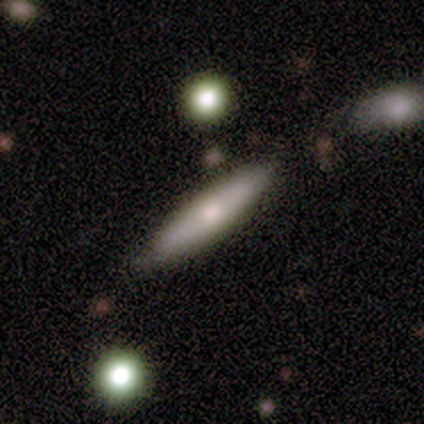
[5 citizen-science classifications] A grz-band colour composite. It shows a smooth galaxy with no disk features (60%) that is cigar-shaped (100%). Merging: none (60%).